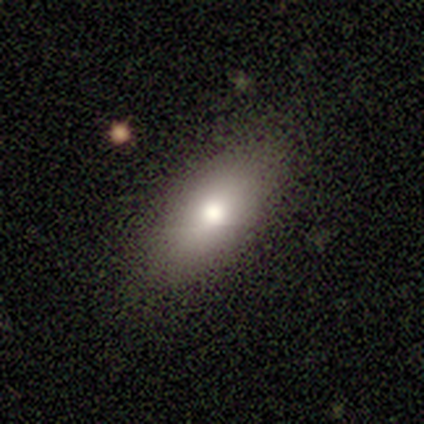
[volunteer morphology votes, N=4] Smooth or featured?
  - smooth: 75% *
  - star or artifact: 25%
  - featured or disk: 0%
How rounded?
  - in between: 100% *
  - round: 0%
  - cigar-shaped: 0%
Merging?
  - none: 100% *
  - minor disturbance: 0%
  - major disturbance: 0%
  - merger: 0%